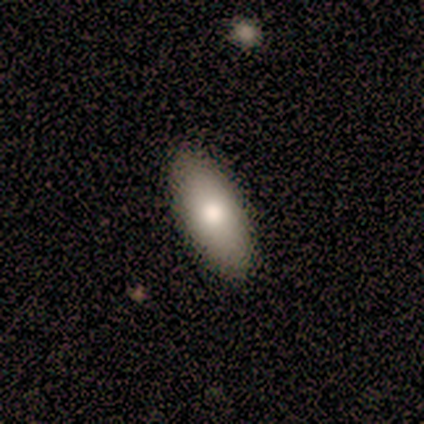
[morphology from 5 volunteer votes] Volunteers were most divided on "smooth or featured": smooth: 80%, featured or disk: 20%, star or artifact: 0%. More confident: how rounded — in between (100%); merging — none (100%).